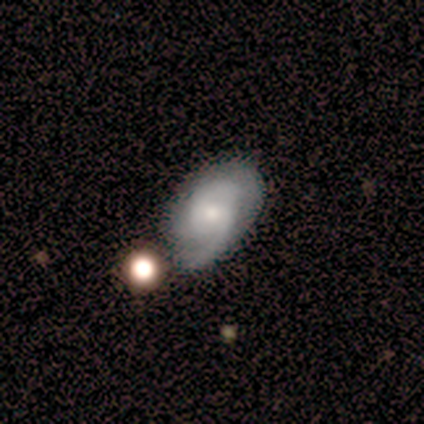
Smooth or featured? featured or disk (67%)
Edge-on disk? no (67%)
Bar? no (75%)
Spiral arms? yes (100%)
Spiral winding? loose (50%)
Spiral arm count? 1 (50%)
Bulge size? small (75%)
Merging? minor disturbance (50%)